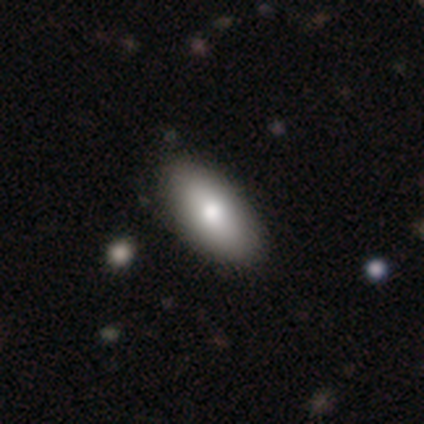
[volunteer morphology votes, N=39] smooth-or-featured: smooth: 77% | featured or disk: 21% | star or artifact: 3%
  how-rounded: in between: 93% | cigar-shaped: 7% | round: 0%
  merging: none: 76% | major disturbance: 5% | merger: 5% | minor disturbance: 3%